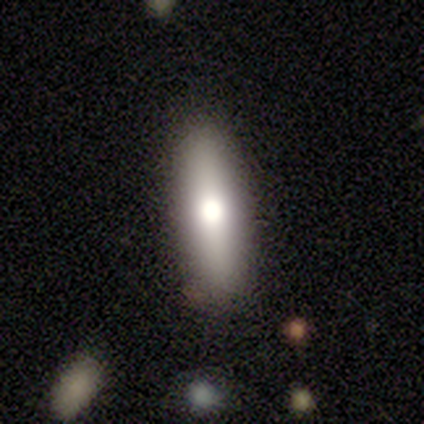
smooth_or_featured: smooth (p=0.60) [alt: star or artifact p=0.40]
how_rounded: cigar-shaped (p=0.67) [alt: in between p=0.33]
merging: none (p=1.00)